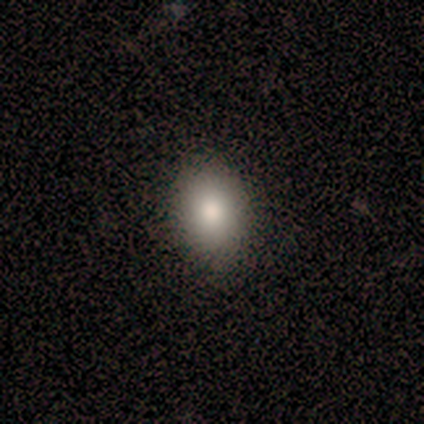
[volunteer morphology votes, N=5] Smooth or featured? 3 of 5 (60%) said smooth. How rounded? 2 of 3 (67%) said round. Merging? 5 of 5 (100%) said none.